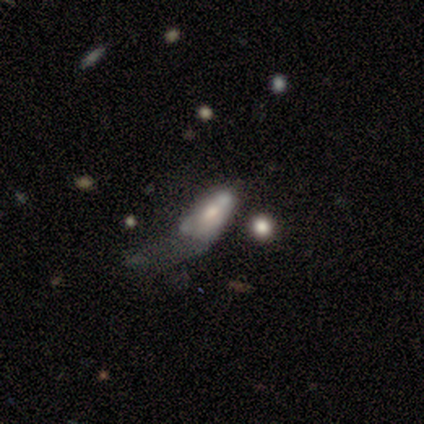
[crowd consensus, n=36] Smooth or featured? 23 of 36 (64%) said smooth. How rounded? 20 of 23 (87%) said in between. Merging? 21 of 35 (60%) said major disturbance.